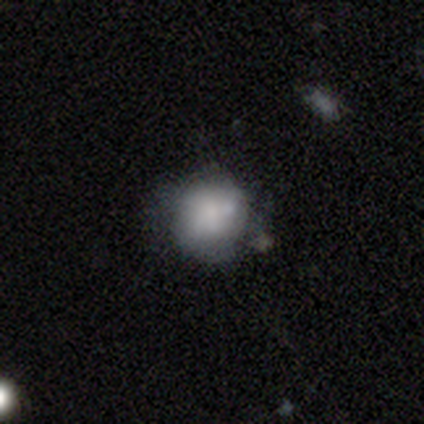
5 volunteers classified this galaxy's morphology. type=smooth (60%); roundness=round (100%); merging=none (100%).